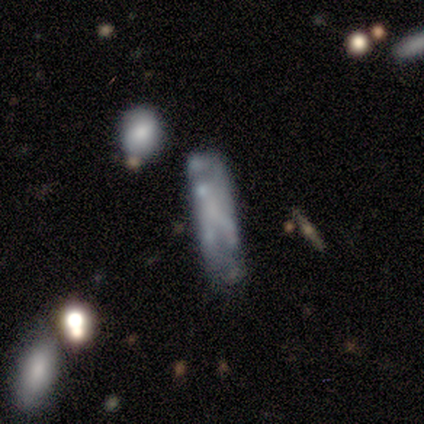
Smooth or featured?
  - featured or disk: 80% *
  - star or artifact: 20%
  - smooth: 0%
Edge-on disk?
  - no: 100% *
  - yes: 0%
Bar?
  - weak: 50% * (tied)
  - no: 50% * (tied)
  - strong: 0%
Spiral arms?
  - no: 75% *
  - yes: 25%
Bulge size?
  - none: 50% *
  - large: 25%
  - small: 25%
  - dominant: 0%
  - moderate: 0%
Merging?
  - none: 50% * (tied)
  - minor disturbance: 50% * (tied)
  - major disturbance: 0%
  - merger: 0%